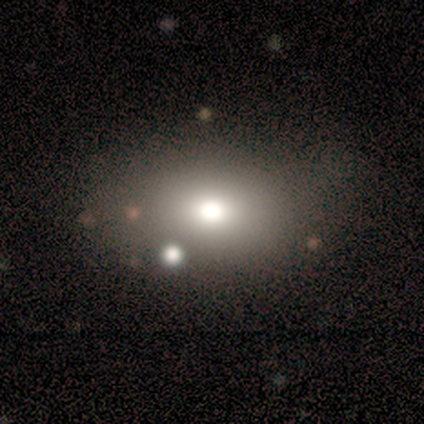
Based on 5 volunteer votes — Overall: smooth (80%). How rounded: in between (100%). Merging: none (100%).